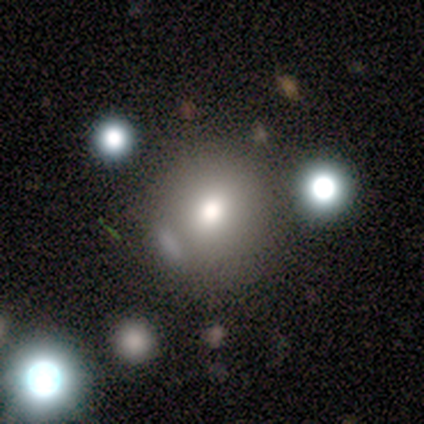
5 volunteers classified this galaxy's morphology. This is clearly a smooth galaxy (100%). How rounded: clearly round (80%). Merging: clearly none (80%).